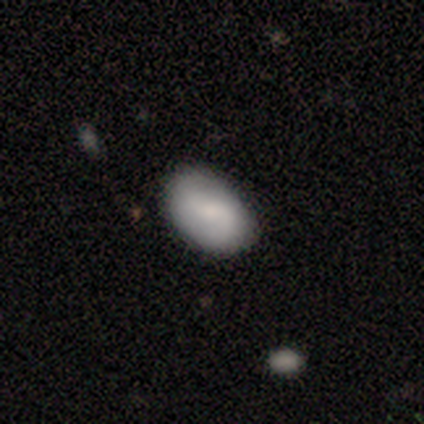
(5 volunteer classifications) Q: Smooth or featured?
A: smooth (80%); runner-up: featured or disk (20%)
Q: How rounded?
A: in between (100%)
Q: Merging?
A: none (100%)